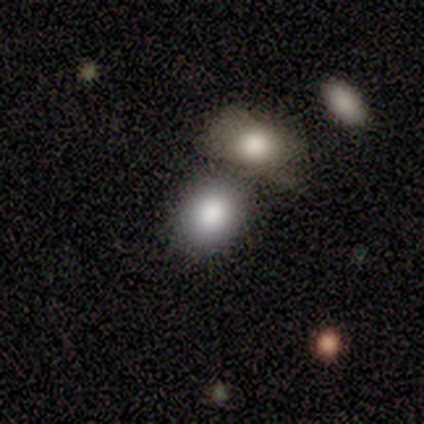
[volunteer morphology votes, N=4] Q: Smooth or featured?
A: smooth (100%)
Q: How rounded?
A: round (75%); runner-up: in between (25%)
Q: Merging?
A: none (50%); tied with: merger (50%)